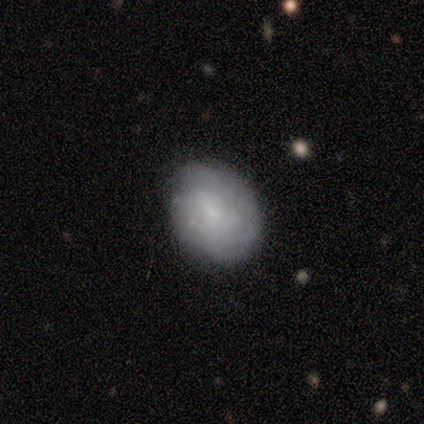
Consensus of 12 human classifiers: A smooth galaxy with no disk features (50%) that is in between round and cigar-shaped (67%).

Vote fractions:
- Smooth or featured? smooth: 50% / featured or disk: 42% / star or artifact: 8%
- How rounded? in between: 67% / round: 33% / cigar-shaped: 0%
- Merging? none: 64% / minor disturbance: 36% / major disturbance: 0% / merger: 0%